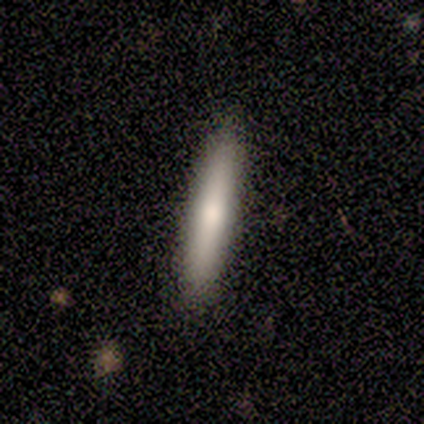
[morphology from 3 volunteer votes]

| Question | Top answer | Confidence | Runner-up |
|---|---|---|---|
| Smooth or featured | smooth | 100% | — |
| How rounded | cigar-shaped | 100% | — |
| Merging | none | 100% | — |